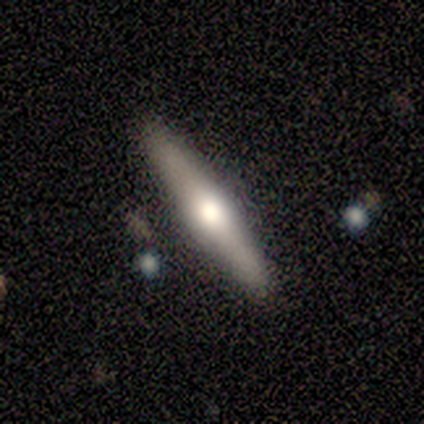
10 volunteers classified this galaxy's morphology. Smooth or featured? featured or disk (80%)
Edge-on disk? yes (88%)
Edge-on bulge? rounded (100%)
Merging? none (100%)